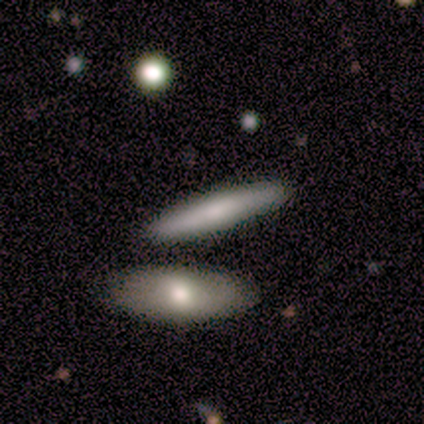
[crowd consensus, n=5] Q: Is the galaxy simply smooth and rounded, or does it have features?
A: featured or disk — 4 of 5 (80%).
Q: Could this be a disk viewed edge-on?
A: yes — 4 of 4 (100%).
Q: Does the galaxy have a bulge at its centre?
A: rounded — 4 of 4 (100%).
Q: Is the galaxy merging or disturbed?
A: none — 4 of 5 (80%).